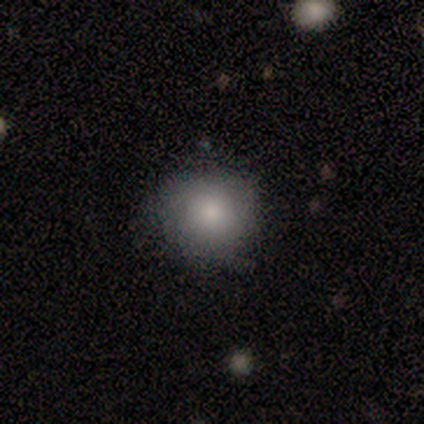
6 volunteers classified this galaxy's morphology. This appears to be a smooth galaxy with no disk features (100%) that is round (83%). Merging: none (83%).